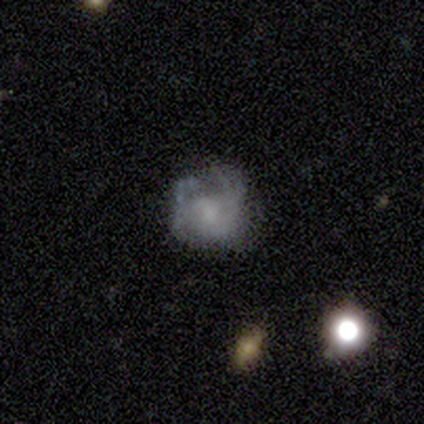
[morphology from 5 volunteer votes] This is likely a smooth galaxy (60%). How rounded: likely round (67%). Merging: likely major disturbance (60%).